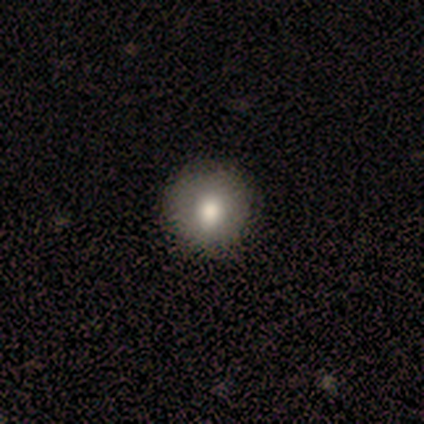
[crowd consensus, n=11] Smooth or featured? 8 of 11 (73%) said smooth. How rounded? 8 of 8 (100%) said round. Merging? 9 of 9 (100%) said none.